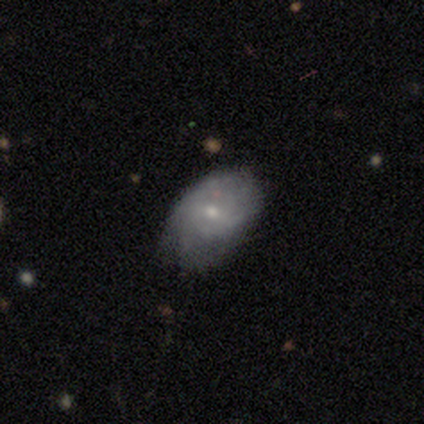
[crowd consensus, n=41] Q: Smooth or featured?
A: featured or disk (56%); runner-up: smooth (37%)
Q: Edge-on disk?
A: no (100%)
Q: Bar?
A: no (74%); runner-up: weak (26%)
Q: Spiral arms?
A: yes (65%); runner-up: no (35%)
Q: Spiral winding?
A: tight (60%); runner-up: medium (27%)
Q: Spiral arm count?
A: can't tell (67%); runner-up: 2 (13%)
Q: Bulge size?
A: small (52%); runner-up: moderate (39%)
Q: Merging?
A: none (58%); runner-up: minor disturbance (37%)